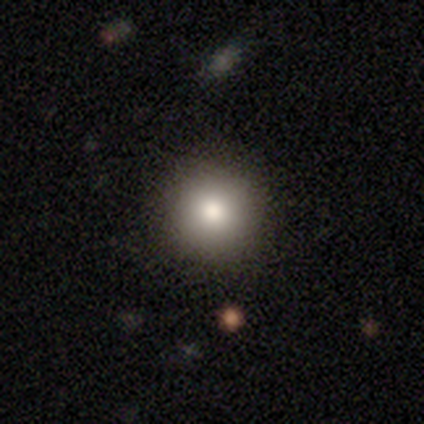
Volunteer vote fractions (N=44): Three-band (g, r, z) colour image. It shows a smooth galaxy with no disk features (80%) that is round (94%). Merging: none (88%).